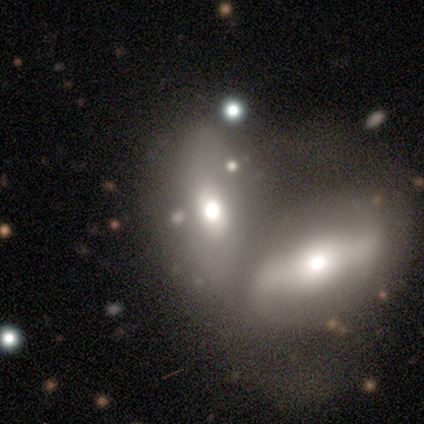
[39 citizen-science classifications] Volunteers were most divided on "smooth or featured": smooth: 51%, featured or disk: 33%, star or artifact: 15%. More confident: how rounded — in between (85%); merging — merger (76%).